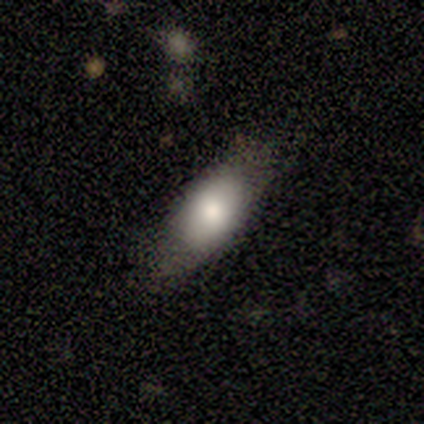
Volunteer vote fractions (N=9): Smooth or featured? 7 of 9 (78%) said smooth. How rounded? 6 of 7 (86%) said in between. Merging? 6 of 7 (86%) said none.